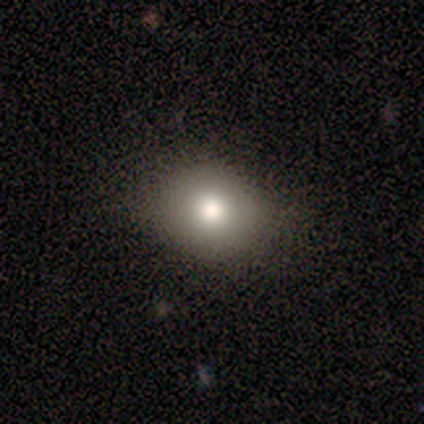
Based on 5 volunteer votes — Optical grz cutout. It shows a smooth galaxy with no disk features (80%) that is round (100%). Merging: none (100%).